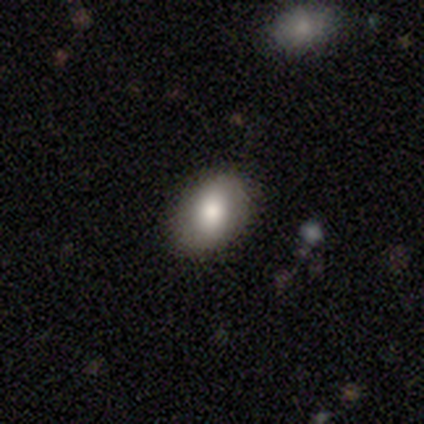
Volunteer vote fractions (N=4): Smooth or featured?
  - smooth: 100% *
  - featured or disk: 0%
  - star or artifact: 0%
How rounded?
  - in between: 100% *
  - round: 0%
  - cigar-shaped: 0%
Merging?
  - none: 75% *
  - minor disturbance: 25%
  - major disturbance: 0%
  - merger: 0%